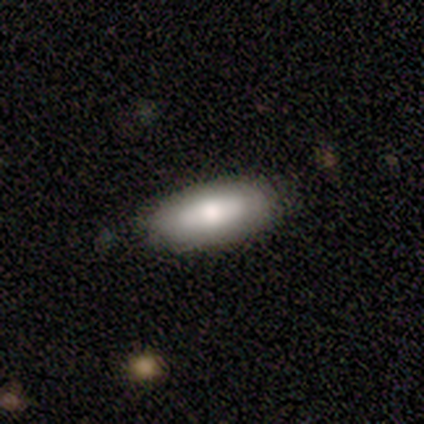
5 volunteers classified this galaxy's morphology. Overall: smooth (100%). How rounded: in between (100%). Merging: none (60%; minor disturbance 20%).